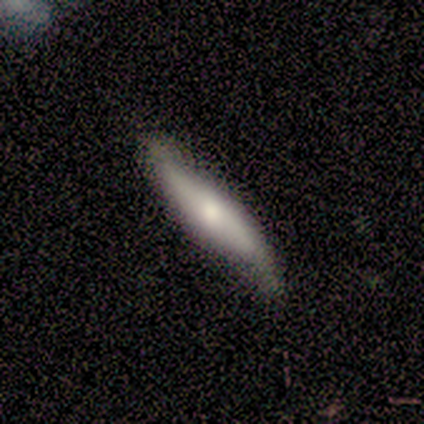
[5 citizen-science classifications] Smooth or featured?
  - smooth: 60% *
  - featured or disk: 20%
  - star or artifact: 20%
How rounded?
  - cigar-shaped: 100% *
  - round: 0%
  - in between: 0%
Merging?
  - minor disturbance: 75% *
  - none: 25%
  - major disturbance: 0%
  - merger: 0%